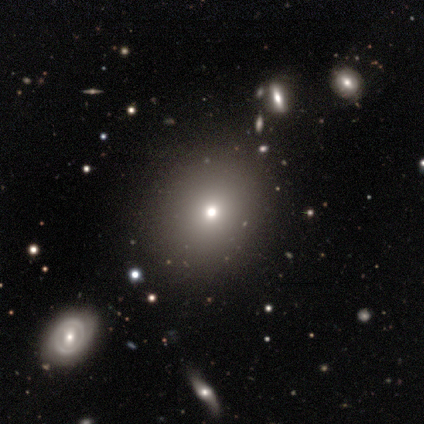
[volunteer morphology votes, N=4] Smooth or featured: smooth — 50% (tied with star or artifact — 50%)
How rounded: round — 100%
Merging: none — 100%